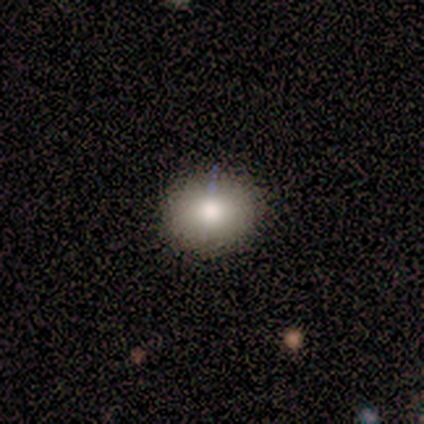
A smooth galaxy with no disk features (75%) that is round (100%). Merging: none (75%).